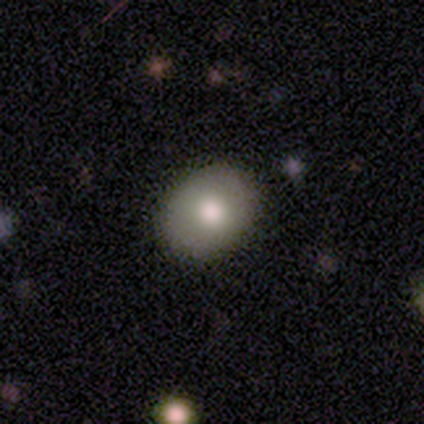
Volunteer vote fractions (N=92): This is likely a smooth galaxy (79%). How rounded: likely in between (60%). Merging: clearly none (90%).